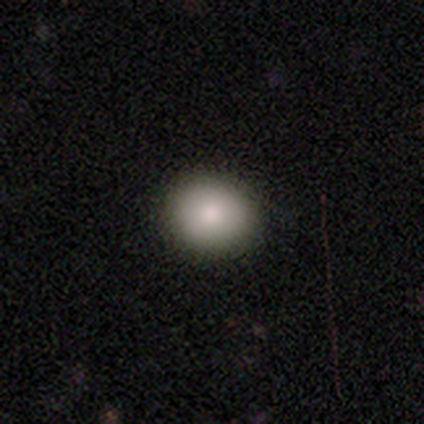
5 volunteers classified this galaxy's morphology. This appears to be a smooth galaxy with no disk features (100%) that is round (80%). Merging: none (100%).